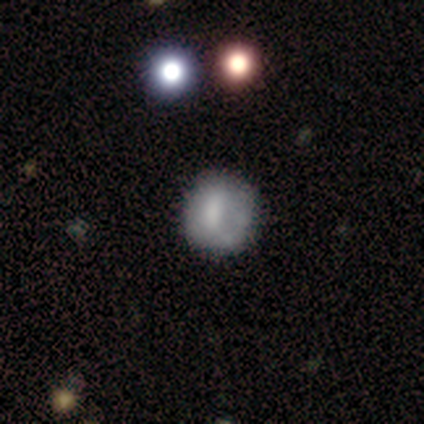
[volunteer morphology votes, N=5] A smooth galaxy with no disk features (60%) that is round (100%).

Vote fractions:
- Smooth or featured? smooth: 60% / featured or disk: 40% / star or artifact: 0%
- How rounded? round: 100% / in between: 0% / cigar-shaped: 0%
- Merging? none: 80% / minor disturbance: 20% / major disturbance: 0% / merger: 0%